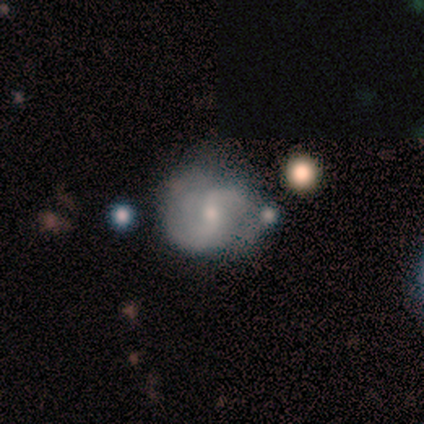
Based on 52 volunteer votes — Smooth or featured? featured or disk (77%)
Edge-on disk? no (100%)
Bar? weak (50%)
Spiral arms? yes (100%)
Spiral winding? medium (42%)
Spiral arm count? 2 (80%)
Bulge size? moderate (50%)
Merging? minor disturbance (38%)